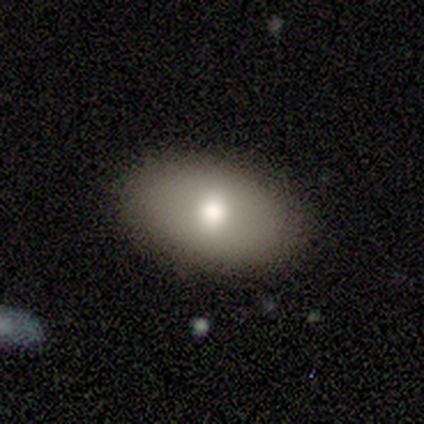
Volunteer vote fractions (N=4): smooth-or-featured: smooth: 100% | featured or disk: 0% | star or artifact: 0%
  how-rounded: in between: 100% | round: 0% | cigar-shaped: 0%
  merging: none: 75% | minor disturbance: 25% | major disturbance: 0% | merger: 0%